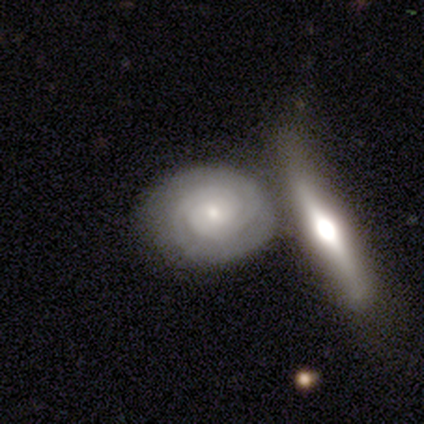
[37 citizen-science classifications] smooth_or_featured: featured or disk (p=0.81) [alt: smooth p=0.11]
disk_edge_on: no (p=0.90) [alt: yes p=0.10]
bar: no (p=0.63) [alt: weak p=0.26]
has_spiral_arms: yes (p=0.96) [alt: no p=0.04]
spiral_winding: tight (p=0.88) [alt: medium p=0.08]
spiral_arm_count: 2 (p=0.62) [alt: 3 p=0.15]
bulge_size: small (p=0.63) [alt: moderate p=0.33]
merging: none (p=0.59) [alt: merger p=0.29]